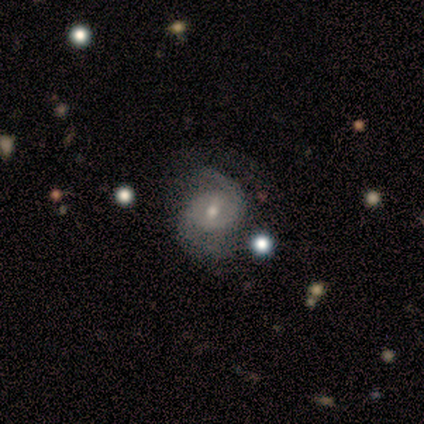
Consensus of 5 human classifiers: Smooth or featured: featured or disk — 100%
Edge-on disk: no — 100%
Bar: weak — 60% (no — 40%)
Spiral arms: yes — 100%
Spiral winding: tight — 100%
Spiral arm count: 2 — 100%
Bulge size: small — 60% (large — 20%)
Merging: none — 80% (minor disturbance — 20%)